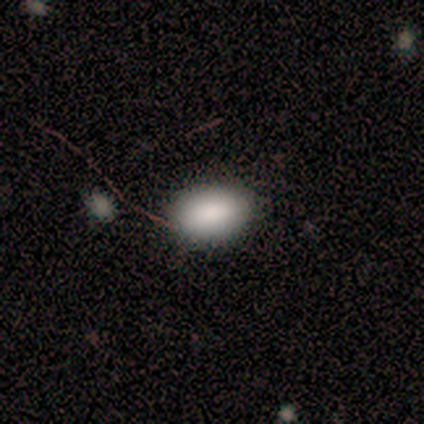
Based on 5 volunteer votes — This is clearly a smooth galaxy (80%). How rounded: clearly in between (100%). Merging: clearly none (80%).